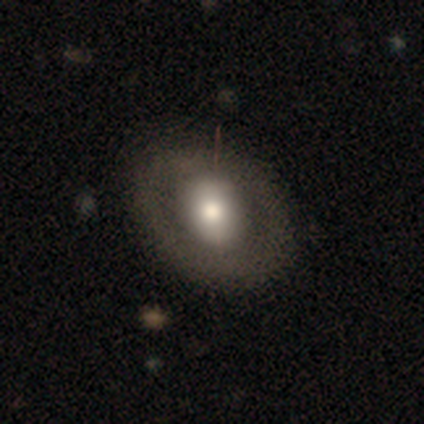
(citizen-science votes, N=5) Q: Smooth or featured?
A: smooth (60%); runner-up: featured or disk (20%)
Q: How rounded?
A: in between (67%); runner-up: round (33%)
Q: Merging?
A: none (75%); runner-up: minor disturbance (25%)